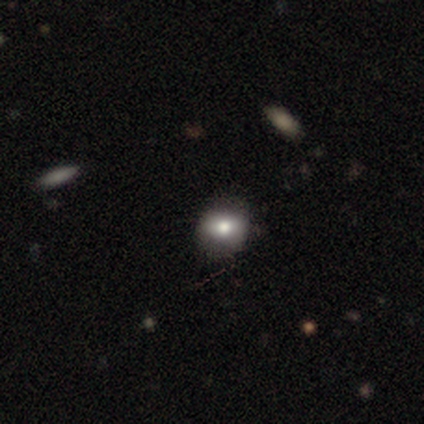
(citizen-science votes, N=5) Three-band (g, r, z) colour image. It shows a smooth galaxy with no disk features (80%) that is round (100%). Merging: none (60%).